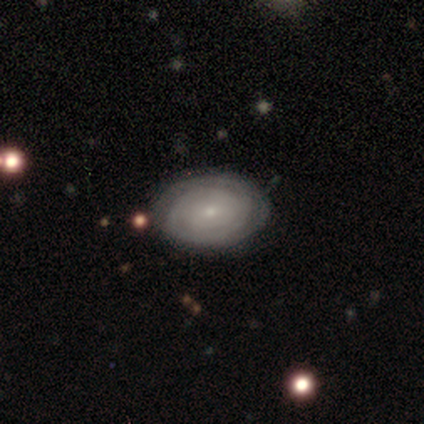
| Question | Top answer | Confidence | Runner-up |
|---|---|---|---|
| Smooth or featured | featured or disk | 84% | smooth (16%) |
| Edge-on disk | no | 100% | — |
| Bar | no | 66% | weak (31%) |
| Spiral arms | yes | 94% | no (6%) |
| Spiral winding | tight | 90% | medium (10%) |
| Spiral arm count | can't tell | 50% | 2 (23%) |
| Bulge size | small | 88% | moderate (9%) |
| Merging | none | 82% | minor disturbance (16%) |